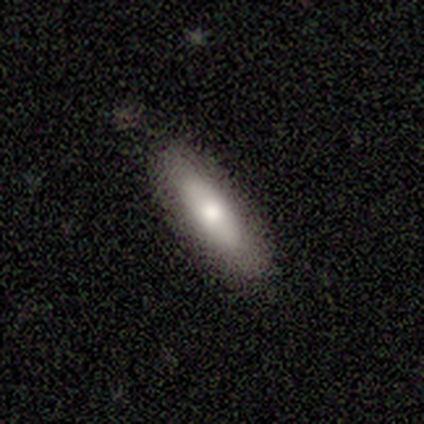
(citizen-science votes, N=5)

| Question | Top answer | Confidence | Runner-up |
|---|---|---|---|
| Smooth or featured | smooth | 80% | star or artifact (20%) |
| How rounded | in between | 100% | — |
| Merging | none | 100% | — |